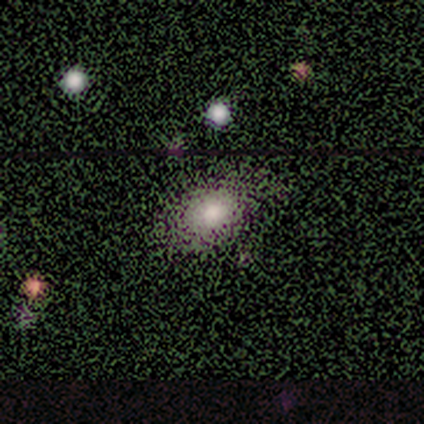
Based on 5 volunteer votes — This is likely a smooth galaxy (60%). How rounded: likely in between (67%). Merging: clearly none (80%).